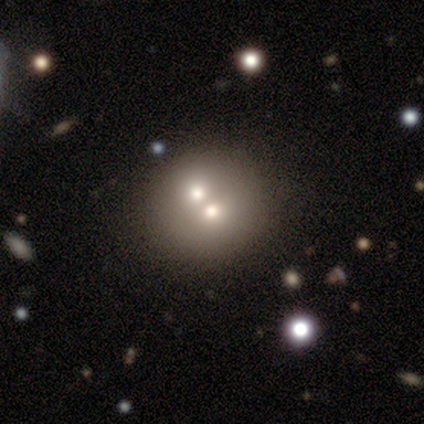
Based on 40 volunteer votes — smooth-or-featured: smooth: 57% | featured or disk: 35% | star or artifact: 8%
  how-rounded: round: 100% | in between: 0% | cigar-shaped: 0%
  merging: merger: 62% | none: 32% | minor disturbance: 0% | major disturbance: 0%